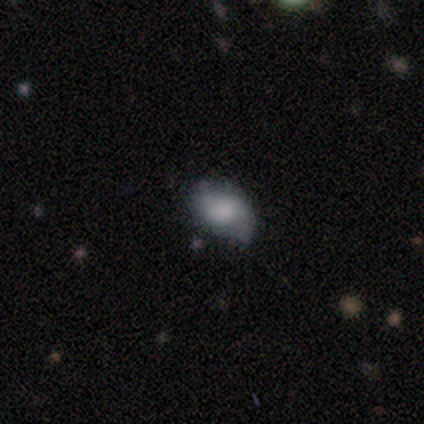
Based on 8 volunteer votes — smooth 75%, featured or disk 25%, star or artifact 0%. Down the decision tree: how rounded — in between (67%); merging — minor disturbance (50%).